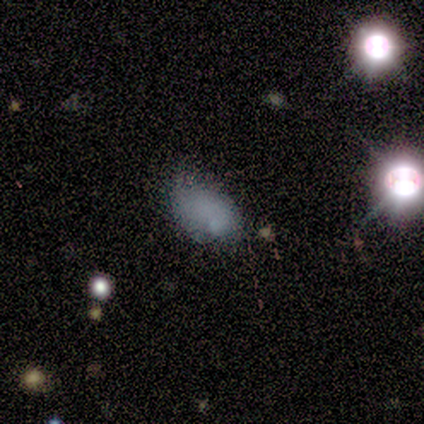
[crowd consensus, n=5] Smooth or featured? 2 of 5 (40%, tied with star or artifact) said smooth. How rounded? 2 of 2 (100%) said in between. Merging? 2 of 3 (67%) said none.